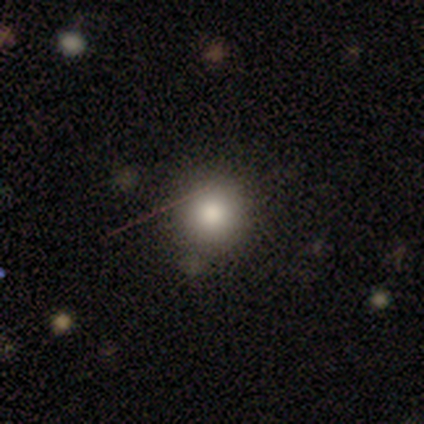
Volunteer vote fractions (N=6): Overall: smooth (83%). How rounded: round (100%). Merging: none (100%).